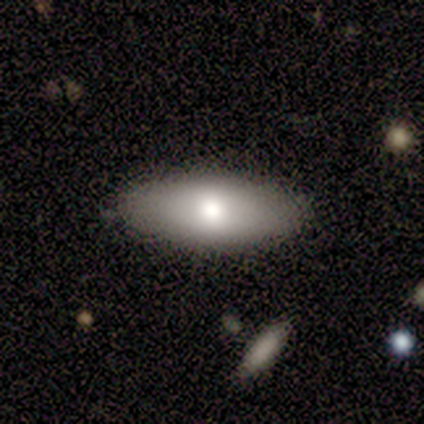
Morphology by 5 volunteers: Q: Smooth or featured?
A: smooth (80%); runner-up: featured or disk (20%)
Q: How rounded?
A: in between (100%)
Q: Merging?
A: none (100%)